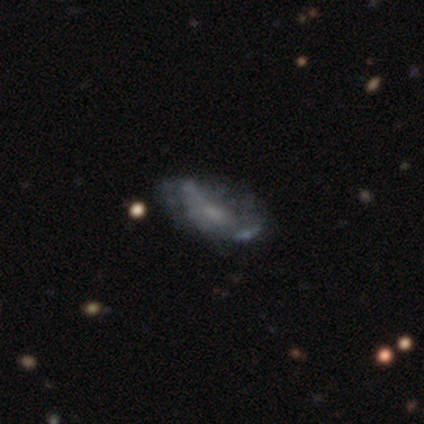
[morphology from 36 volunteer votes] Volunteers were most divided on "bulge size" (2-way tie): moderate: 40%, small: 40%, none: 20%, dominant: 0%, large: 0%. More confident: edge-on disk — no (91%); spiral arms — no (65%); smooth or featured — featured or disk (61%); bar — weak (55%); merging — none (52%).